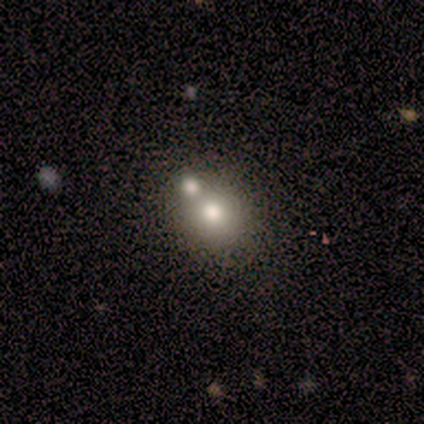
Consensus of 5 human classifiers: smooth-or-featured: smooth: 80% | featured or disk: 20% | star or artifact: 0%
  how-rounded: round: 50% (tied) | in between: 50% (tied) | cigar-shaped: 0%
  merging: none: 60% | merger: 40% | minor disturbance: 0% | major disturbance: 0%